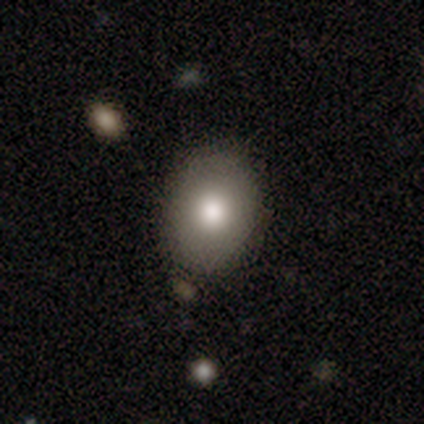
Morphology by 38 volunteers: Volunteers were most divided on "how rounded": in between: 54%, round: 46%, cigar-shaped: 0%. More confident: merging — none (86%); smooth or featured — smooth (74%).